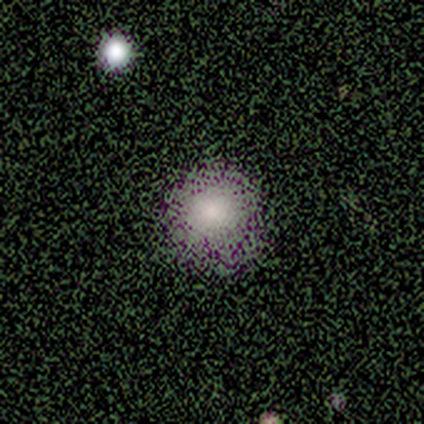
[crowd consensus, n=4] This appears to be a smooth galaxy with no disk features (50%, tied with star or artifact) that is round (100%). Merging: none (100%).